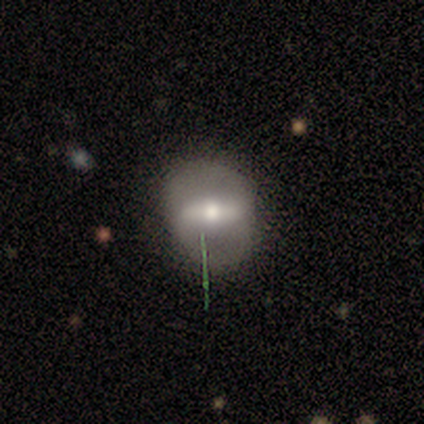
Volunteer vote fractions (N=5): Morphology: type=featured or disk (60%); edge-on=no (67%); bar=strong (50%, tied with no); spiral arms=no (100%); bulge=large (50%, tied with moderate); merging=none (80%).